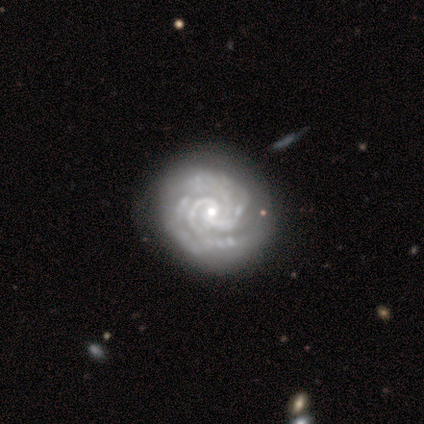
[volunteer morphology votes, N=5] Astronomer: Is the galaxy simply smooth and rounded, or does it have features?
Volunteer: featured or disk — 80%.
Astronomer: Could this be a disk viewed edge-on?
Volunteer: no — 100%.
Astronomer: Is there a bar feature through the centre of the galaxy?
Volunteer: weak — 50%.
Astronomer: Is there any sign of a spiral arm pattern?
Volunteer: yes — 100%.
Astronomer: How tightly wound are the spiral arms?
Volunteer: tight — 100%.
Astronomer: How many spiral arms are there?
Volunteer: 2 — 75%.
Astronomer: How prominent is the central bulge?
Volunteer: small — 75%.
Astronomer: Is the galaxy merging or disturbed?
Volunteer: none — 100%.